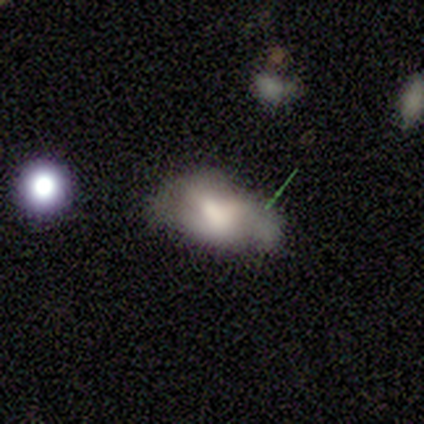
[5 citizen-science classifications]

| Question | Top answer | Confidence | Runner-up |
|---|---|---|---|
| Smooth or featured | featured or disk | 80% | smooth (20%) |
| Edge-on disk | no | 100% | — |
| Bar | weak | 75% | no (25%) |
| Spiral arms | yes | 75% | no (25%) |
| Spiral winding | medium | 100% | — |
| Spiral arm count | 2 | 33% | tied: 3 (33%), can't tell (33%) |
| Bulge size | large | 50% | small (25%) |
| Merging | minor disturbance | 60% | none (40%) |